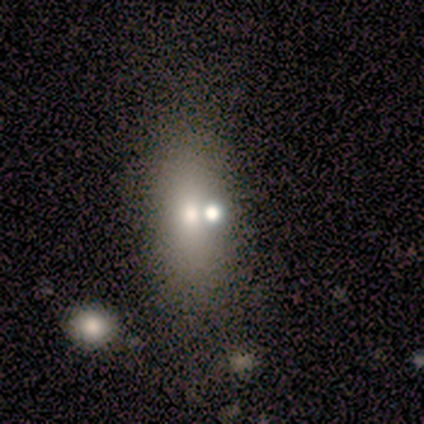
Smooth or featured? smooth (100%)
How rounded? in between (60%)
Merging? merger (60%)